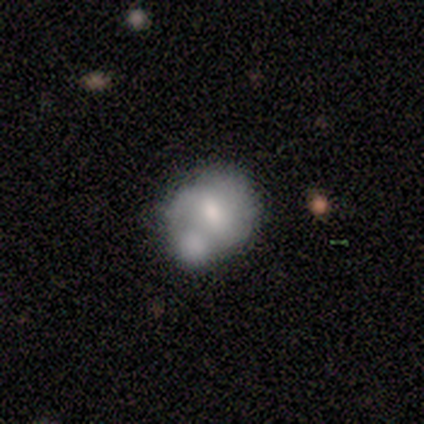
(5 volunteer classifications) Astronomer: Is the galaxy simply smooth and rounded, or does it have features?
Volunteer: smooth — 60% (runner-up: featured or disk, 40%).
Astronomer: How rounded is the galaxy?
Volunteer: round — 100%.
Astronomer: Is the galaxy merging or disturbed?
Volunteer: none — 60% (runner-up: merger, 40%).